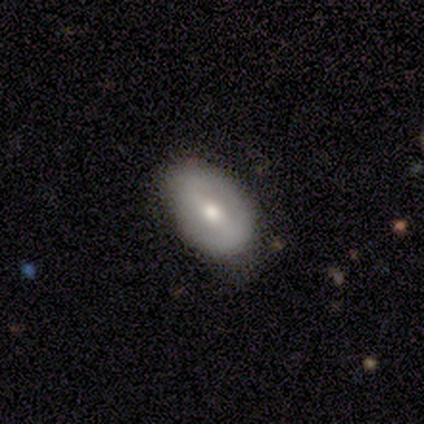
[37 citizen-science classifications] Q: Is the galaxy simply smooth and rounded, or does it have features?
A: featured or disk — 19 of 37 (51%).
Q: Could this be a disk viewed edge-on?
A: no — 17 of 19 (89%).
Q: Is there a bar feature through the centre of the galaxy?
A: strong — 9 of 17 (53%).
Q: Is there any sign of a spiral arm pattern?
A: no — 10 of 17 (59%).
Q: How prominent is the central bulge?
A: moderate — 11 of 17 (65%).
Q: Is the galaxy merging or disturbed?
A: none — 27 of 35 (77%).